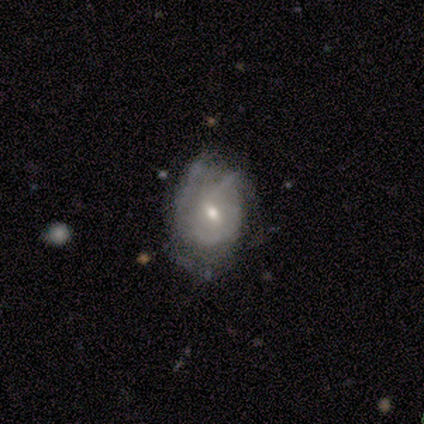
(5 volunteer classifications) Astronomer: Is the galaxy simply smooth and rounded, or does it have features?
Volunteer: featured or disk — 60% (runner-up: smooth, 40%).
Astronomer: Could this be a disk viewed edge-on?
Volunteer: no — 100%.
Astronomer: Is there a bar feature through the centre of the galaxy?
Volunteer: no — 100%.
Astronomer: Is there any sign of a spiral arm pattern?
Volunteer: no — 67%.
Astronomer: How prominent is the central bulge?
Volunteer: moderate — 67%.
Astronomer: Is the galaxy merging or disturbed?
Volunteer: minor disturbance — 40%, tied with major disturbance at 40%.